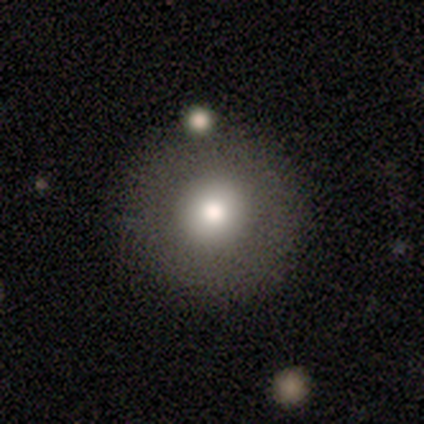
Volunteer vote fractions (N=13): Smooth or featured: smooth — 69% (featured or disk — 23%)
How rounded: round — 100%
Merging: none — 100%